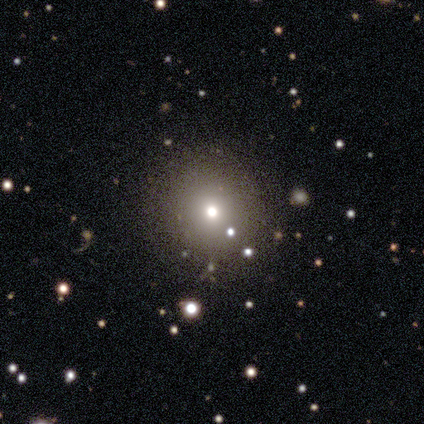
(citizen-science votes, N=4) Smooth or featured?
  - smooth: 50% *
  - featured or disk: 25%
  - star or artifact: 25%
How rounded?
  - round: 100% *
  - in between: 0%
  - cigar-shaped: 0%
Merging?
  - none: 100% *
  - minor disturbance: 0%
  - major disturbance: 0%
  - merger: 0%